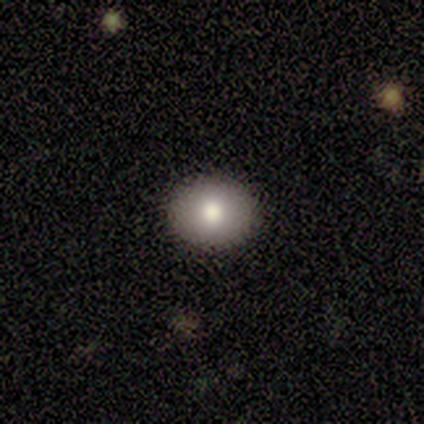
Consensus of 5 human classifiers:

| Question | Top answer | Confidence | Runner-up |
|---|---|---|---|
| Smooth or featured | smooth | 100% | — |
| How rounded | round | 80% | in between (20%) |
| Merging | none | 100% | — |